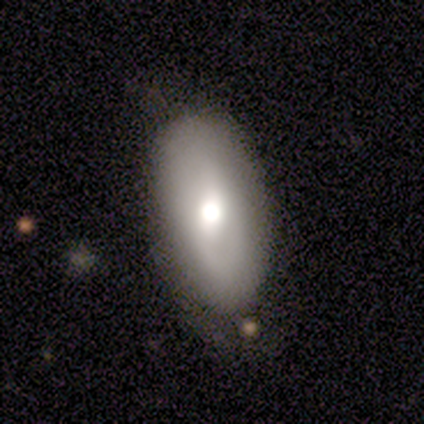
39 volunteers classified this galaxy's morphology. type=smooth (72%); roundness=in between (93%); merging=none (89%).